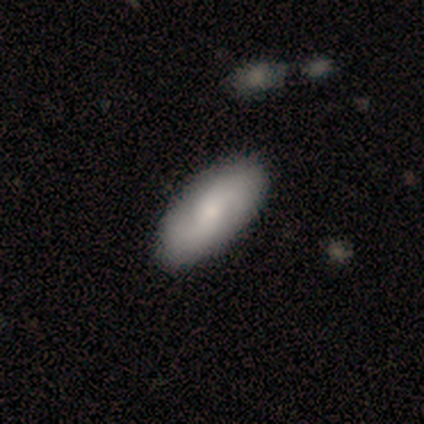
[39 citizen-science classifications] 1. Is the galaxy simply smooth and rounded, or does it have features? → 56% featured or disk, 41% smooth, 3% star or artifact.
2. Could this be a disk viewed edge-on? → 95% no, 5% yes.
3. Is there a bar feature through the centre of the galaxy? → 57% no, 38% weak, 5% strong.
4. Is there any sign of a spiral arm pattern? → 95% yes, 5% no.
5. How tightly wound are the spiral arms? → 55% medium, 35% loose, 10% tight.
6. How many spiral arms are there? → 85% 2, 15% can't tell, 0% 1, 0% 3, 0% 4, 0% more than 4.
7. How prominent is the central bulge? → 43% moderate (tied), 43% small (tied), 14% large, 0% dominant, 0% none.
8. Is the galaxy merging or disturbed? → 76% none, 8% minor disturbance, 0% major disturbance, 0% merger.